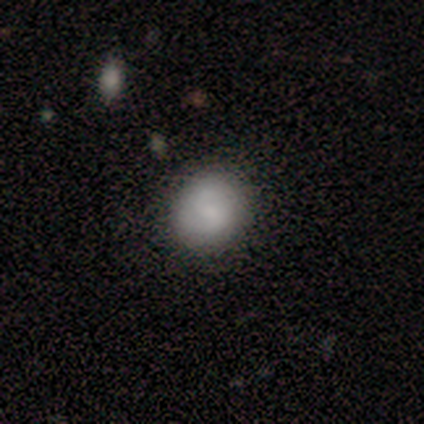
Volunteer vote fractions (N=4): A smooth galaxy with no disk features (75%) that is round (100%). Merging: none (50%, tied with minor disturbance).